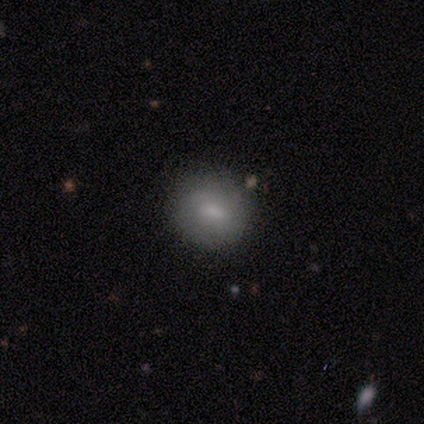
Q: Smooth or featured?
A: smooth (60%); runner-up: featured or disk (40%)
Q: How rounded?
A: round (67%); runner-up: in between (33%)
Q: Merging?
A: none (100%)